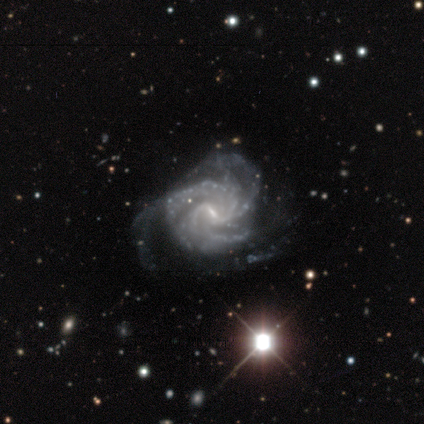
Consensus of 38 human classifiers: Volunteers were most divided on "merging": none: 35%, minor disturbance: 27%, major disturbance: 16%, merger: 0%. Remaining: edge-on disk — no (100%); spiral arms — yes (100%); smooth or featured — featured or disk (95%); bulge size — small (78%); bar — weak (58%); spiral winding — medium (53%); spiral arm count — 3 (39%).